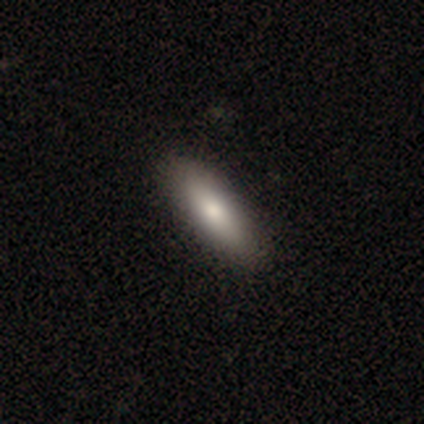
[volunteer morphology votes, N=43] smooth 88%, featured or disk 12%, star or artifact 0%. Down the decision tree: how rounded — in between (79%); merging — none (86%).